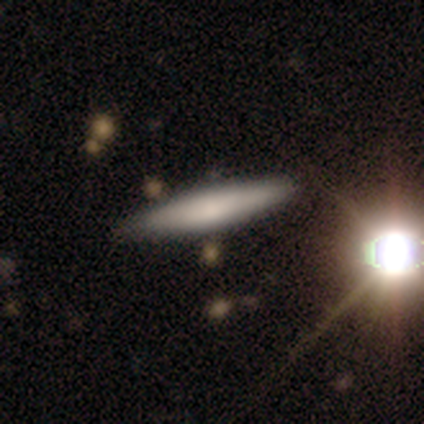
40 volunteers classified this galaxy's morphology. Volunteers were most divided on "smooth or featured": smooth: 68%, featured or disk: 25%, star or artifact: 8%. More confident: how rounded — cigar-shaped (93%); merging — none (68%).